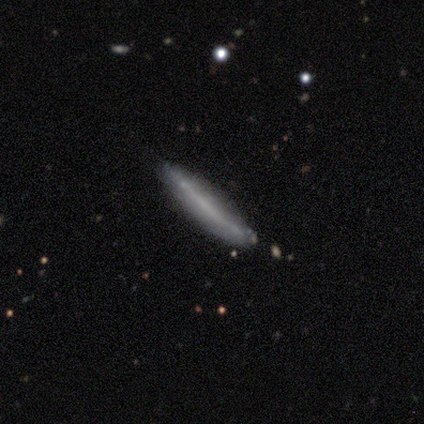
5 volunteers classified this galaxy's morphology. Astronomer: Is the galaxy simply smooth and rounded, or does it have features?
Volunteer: featured or disk — 80%.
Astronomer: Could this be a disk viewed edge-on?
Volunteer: yes — 75%.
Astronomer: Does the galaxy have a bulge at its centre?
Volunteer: none — 100%.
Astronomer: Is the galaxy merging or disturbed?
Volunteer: none — 60%.